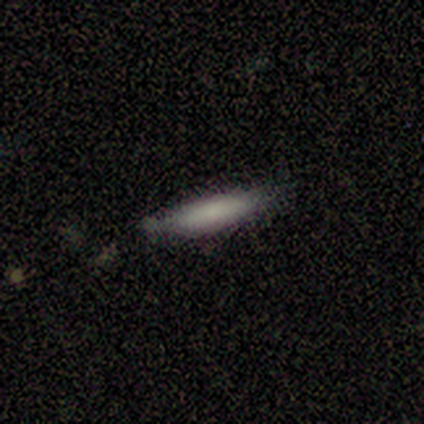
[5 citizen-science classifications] Smooth or featured? smooth (80%)
How rounded? cigar-shaped (100%)
Merging? none (60%)